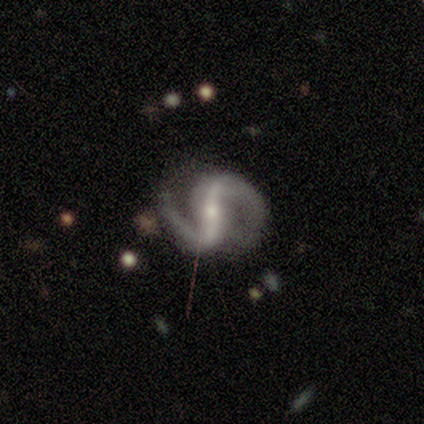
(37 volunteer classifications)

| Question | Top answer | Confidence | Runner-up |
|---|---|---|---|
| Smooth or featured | featured or disk | 95% | star or artifact (5%) |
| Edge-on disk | no | 89% | yes (11%) |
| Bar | strong | 58% | weak (32%) |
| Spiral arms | yes | 100% | — |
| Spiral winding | medium | 55% | loose (35%) |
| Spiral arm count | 2 | 94% | more than 4 (3%) |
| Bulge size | small | 74% | moderate (23%) |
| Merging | none | 80% | minor disturbance (14%) |